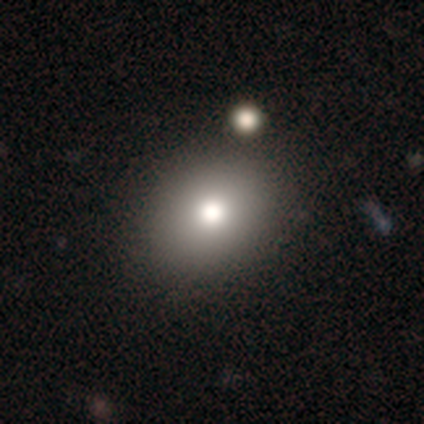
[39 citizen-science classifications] Morphology: type=smooth (85%); roundness=round (55%); merging=none (62%).